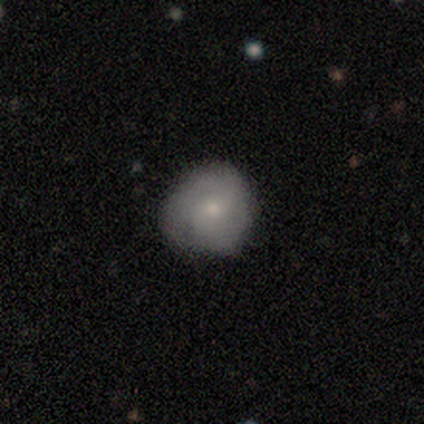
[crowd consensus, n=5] Volunteers were most divided on "smooth or featured": smooth: 60%, featured or disk: 40%, star or artifact: 0%. More confident: how rounded — round (100%); merging — minor disturbance (80%).